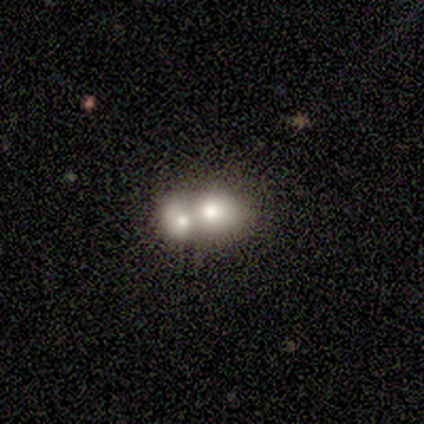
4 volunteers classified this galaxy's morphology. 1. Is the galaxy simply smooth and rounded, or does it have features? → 50% smooth (tied), 50% star or artifact (tied), 0% featured or disk.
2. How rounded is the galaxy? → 50% round (tied), 50% in between (tied), 0% cigar-shaped.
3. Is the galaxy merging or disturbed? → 100% merger, 0% none, 0% minor disturbance, 0% major disturbance.